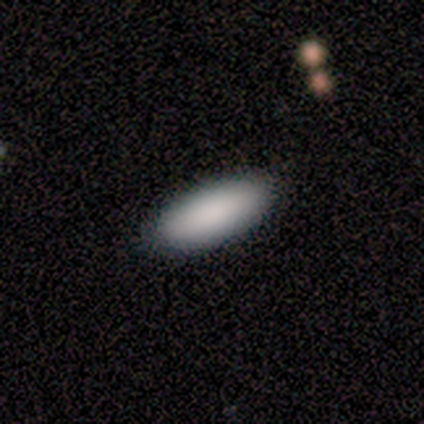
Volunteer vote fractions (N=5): smooth-or-featured: smooth: 100% | featured or disk: 0% | star or artifact: 0%
  how-rounded: in between: 80% | cigar-shaped: 20% | round: 0%
  merging: none: 100% | minor disturbance: 0% | major disturbance: 0% | merger: 0%